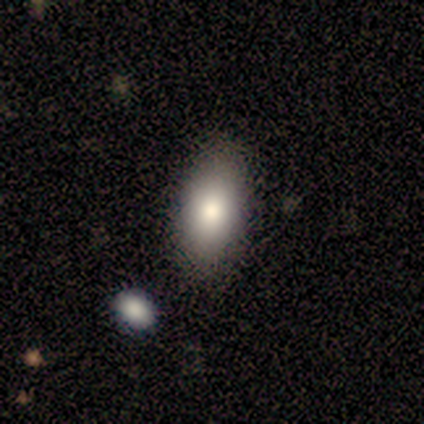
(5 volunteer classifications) Overall: smooth (80%). How rounded: in between (100%). Merging: none (80%).